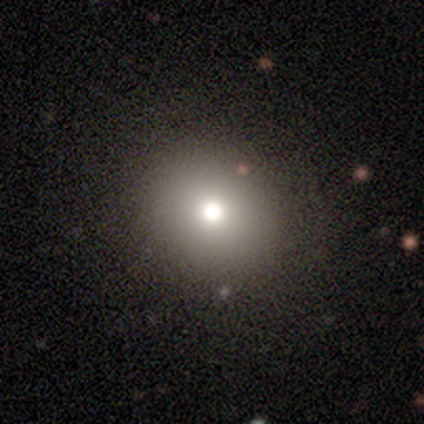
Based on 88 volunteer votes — Q: Smooth or featured?
A: smooth (74%); runner-up: star or artifact (20%)
Q: How rounded?
A: round (82%); runner-up: in between (18%)
Q: Merging?
A: none (93%); runner-up: minor disturbance (3%)